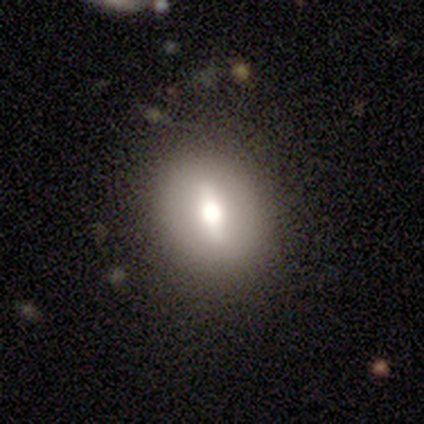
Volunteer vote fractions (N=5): Morphology: type=smooth (60%); roundness=cigar-shaped (67%); merging=none (80%).